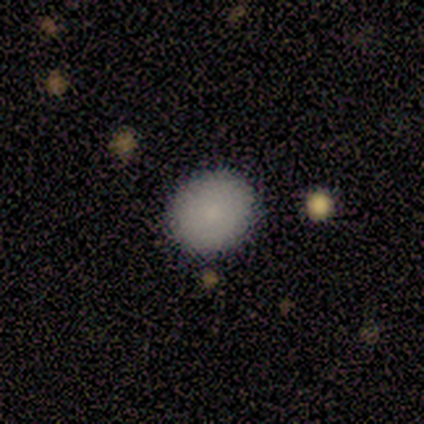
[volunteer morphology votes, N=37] A smooth galaxy with no disk features (89%) that is round (67%).

Vote fractions:
- Smooth or featured? smooth: 89% / featured or disk: 5% / star or artifact: 5%
- How rounded? round: 67% / in between: 30% / cigar-shaped: 3%
- Merging? none: 100% / minor disturbance: 0% / major disturbance: 0% / merger: 0%